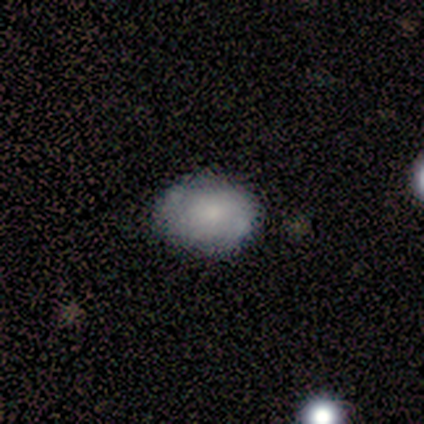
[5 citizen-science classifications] Overall: smooth (80%). How rounded: in between (75%). Merging: none (60%; minor disturbance 40%).